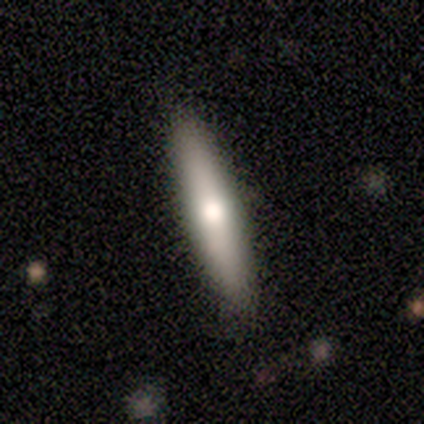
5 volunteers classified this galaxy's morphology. Q: Smooth or featured?
A: smooth (100%)
Q: How rounded?
A: cigar-shaped (100%)
Q: Merging?
A: none (80%); runner-up: major disturbance (20%)